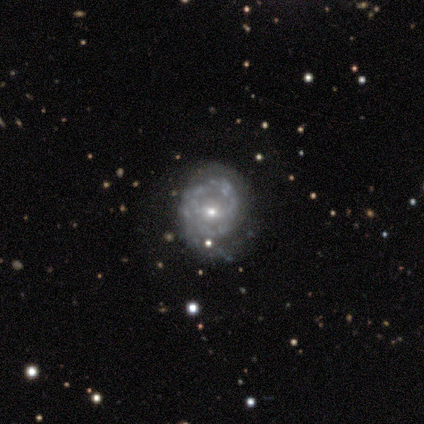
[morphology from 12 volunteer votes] smooth_or_featured: featured or disk (p=0.83) [alt: smooth p=0.17]
disk_edge_on: no (p=1.00)
bar: no (p=0.70) [alt: weak p=0.20]
has_spiral_arms: yes (p=0.70) [alt: no p=0.30]
spiral_winding: medium (p=0.57) [alt: tight p=0.43]
spiral_arm_count: 2 (p=0.43) [tied with: can't tell p=0.43]
bulge_size: small (p=1.00)
merging: none (p=0.42) [tied with: minor disturbance p=0.42]